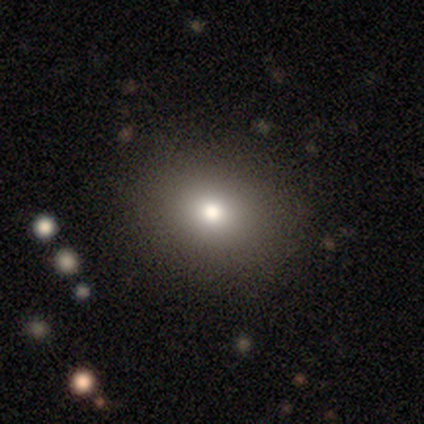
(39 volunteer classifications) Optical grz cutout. It shows a smooth galaxy with no disk features (59%) that is round (74%). Merging: none (90%).